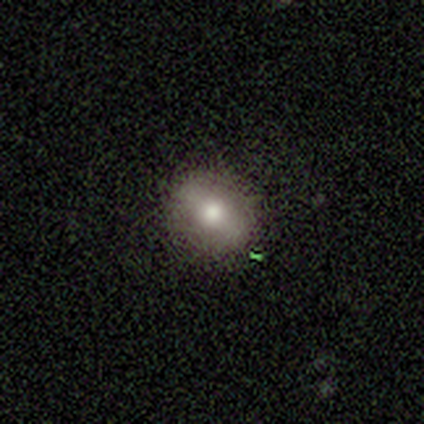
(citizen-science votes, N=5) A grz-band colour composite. It shows a smooth galaxy with no disk features (60%) that is round (67%). Merging: none (100%).